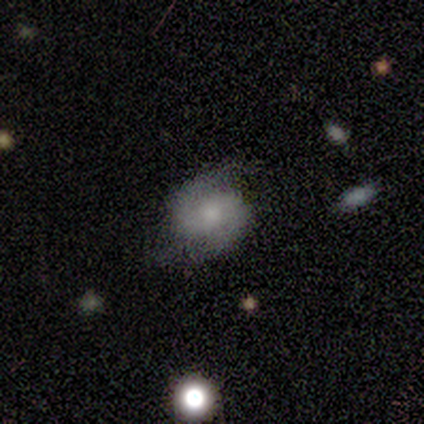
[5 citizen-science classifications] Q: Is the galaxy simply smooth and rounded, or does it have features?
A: featured or disk — 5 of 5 (100%).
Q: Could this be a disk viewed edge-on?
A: no — 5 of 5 (100%).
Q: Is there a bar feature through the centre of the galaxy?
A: weak — 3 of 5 (60%).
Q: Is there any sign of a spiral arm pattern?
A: yes — 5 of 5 (100%).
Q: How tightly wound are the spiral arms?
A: tight — 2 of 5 (40%, tied with medium).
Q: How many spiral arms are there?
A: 2 — 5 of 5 (100%).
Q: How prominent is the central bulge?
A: small — 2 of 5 (40%).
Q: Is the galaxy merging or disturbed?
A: none — 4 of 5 (80%).